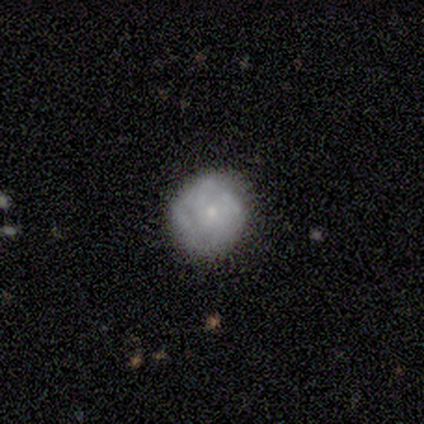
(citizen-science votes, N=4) Smooth or featured? smooth (75%)
How rounded? round (100%)
Merging? none (50%, tied with minor disturbance)